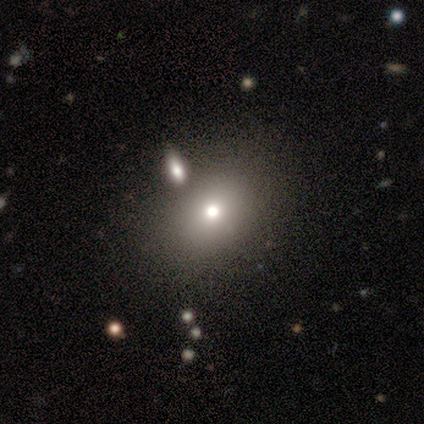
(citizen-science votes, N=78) Smooth or featured?
  - smooth: 68% *
  - featured or disk: 19%
  - star or artifact: 13%
How rounded?
  - in between: 62% *
  - round: 38%
  - cigar-shaped: 0%
Merging?
  - none: 50% *
  - merger: 28%
  - minor disturbance: 16%
  - major disturbance: 3%